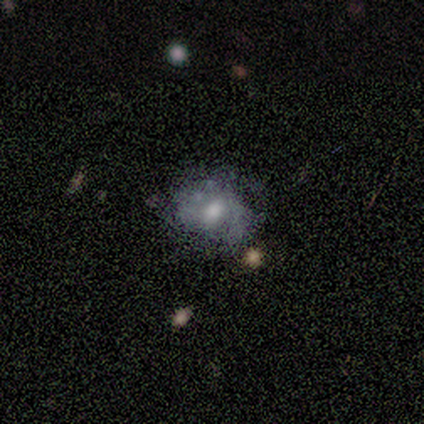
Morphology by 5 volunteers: A featured or disk galaxy (80%) with no bar (75%), 2 (50%, tied with can't tell) tight (50%, tied with medium) spiral arms (50%, tied with no) and a moderate central bulge (75%). Merging: none (100%).